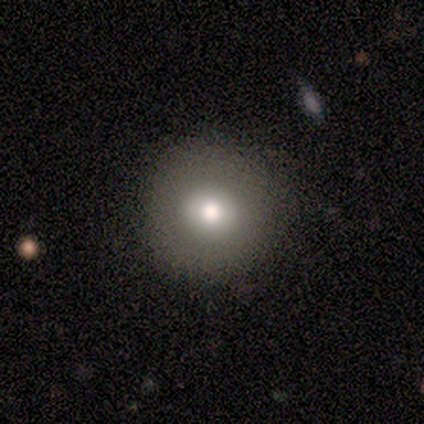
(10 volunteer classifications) Smooth or featured? 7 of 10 (70%) said smooth. How rounded? 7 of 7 (100%) said round. Merging? 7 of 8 (88%) said none.